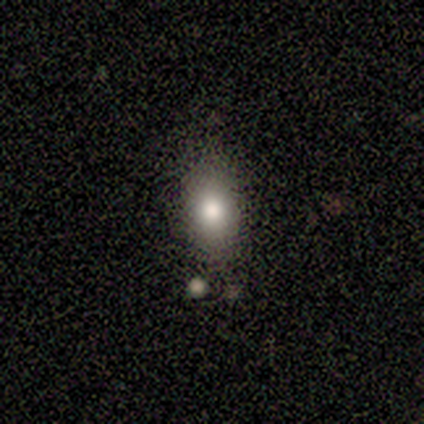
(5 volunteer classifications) This is likely a smooth galaxy (60%). How rounded: clearly in between (100%). Merging: possibly none (50%).